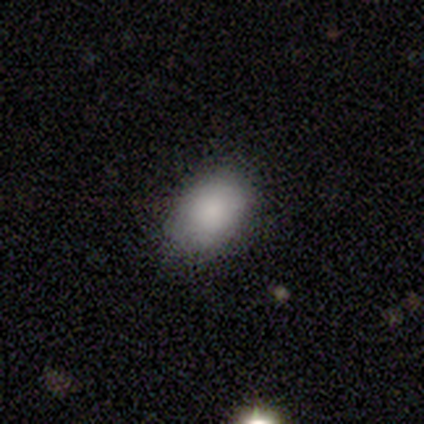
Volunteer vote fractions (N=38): Smooth or featured?
  - smooth: 89% *
  - featured or disk: 8%
  - star or artifact: 3%
How rounded?
  - in between: 85% *
  - round: 15%
  - cigar-shaped: 0%
Merging?
  - none: 76% *
  - minor disturbance: 22%
  - major disturbance: 3%
  - merger: 0%